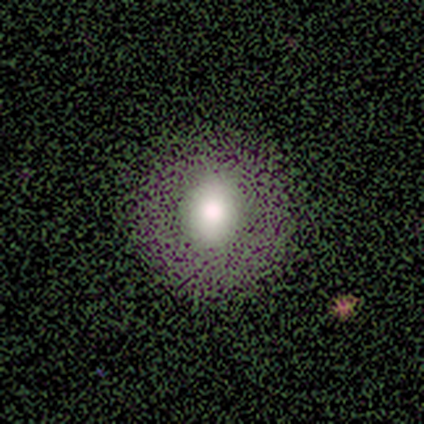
A smooth galaxy with no disk features (60%) that is round (100%). Merging: none (100%).